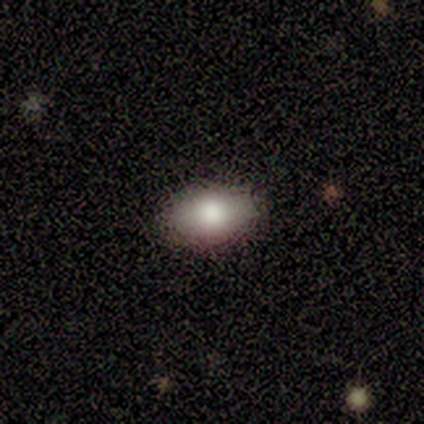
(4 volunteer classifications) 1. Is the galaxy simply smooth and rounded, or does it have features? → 75% smooth, 25% star or artifact, 0% featured or disk.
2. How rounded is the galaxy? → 100% in between, 0% round, 0% cigar-shaped.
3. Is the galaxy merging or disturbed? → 67% none, 33% minor disturbance, 0% major disturbance, 0% merger.